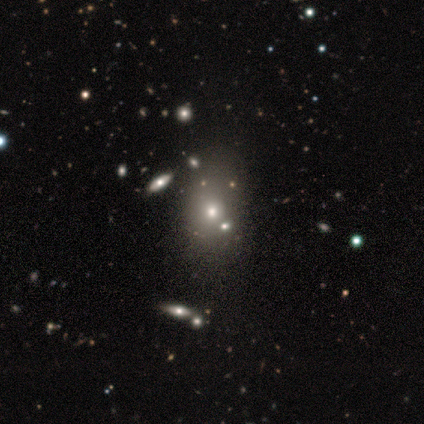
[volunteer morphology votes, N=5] Smooth or featured? 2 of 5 (40%, tied with star or artifact) said smooth. How rounded? 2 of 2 (100%) said in between. Merging? 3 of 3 (100%) said none.